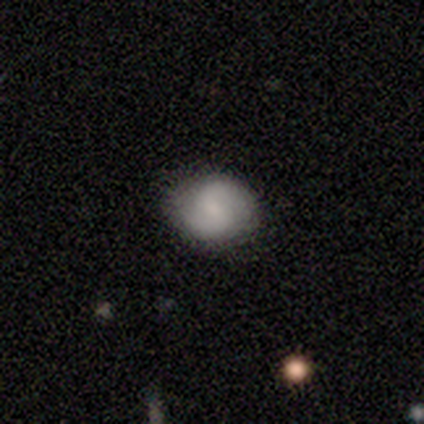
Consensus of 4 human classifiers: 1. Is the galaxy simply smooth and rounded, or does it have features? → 50% featured or disk, 25% smooth, 25% star or artifact.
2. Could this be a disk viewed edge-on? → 100% no, 0% yes.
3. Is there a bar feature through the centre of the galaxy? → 50% strong (tied), 50% no (tied), 0% weak.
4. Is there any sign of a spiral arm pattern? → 100% yes, 0% no.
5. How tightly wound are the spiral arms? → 50% medium (tied), 50% loose (tied), 0% tight.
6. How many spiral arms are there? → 100% 2, 0% 1, 0% 3, 0% 4, 0% more than 4, 0% can't tell.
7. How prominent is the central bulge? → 100% none, 0% dominant, 0% large, 0% moderate, 0% small.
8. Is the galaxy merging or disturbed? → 100% none, 0% minor disturbance, 0% major disturbance, 0% merger.